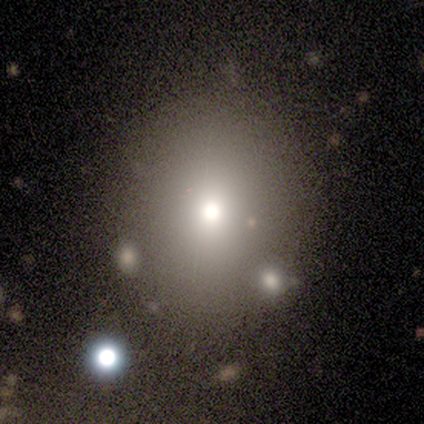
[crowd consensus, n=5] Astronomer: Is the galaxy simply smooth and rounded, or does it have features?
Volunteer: smooth — 80%.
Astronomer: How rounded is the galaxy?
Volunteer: round — 100%.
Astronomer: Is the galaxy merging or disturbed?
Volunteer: none — 50%.